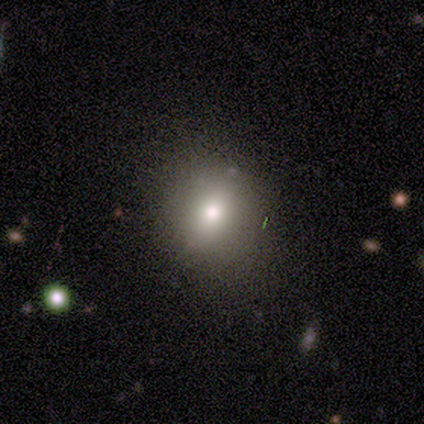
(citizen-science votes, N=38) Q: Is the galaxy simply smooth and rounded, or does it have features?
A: smooth — 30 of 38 (79%).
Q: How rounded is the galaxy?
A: round — 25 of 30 (83%).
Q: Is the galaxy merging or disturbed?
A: none — 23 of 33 (70%).